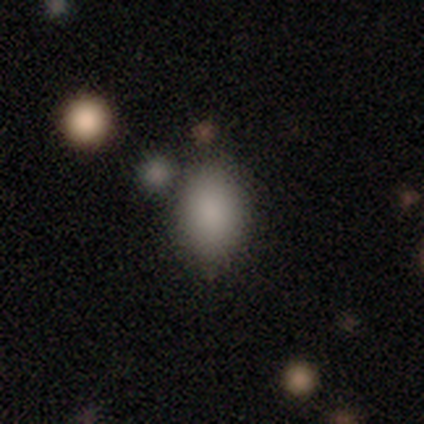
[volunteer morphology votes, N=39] type=smooth (79%); roundness=in between (77%); merging=none (74%).